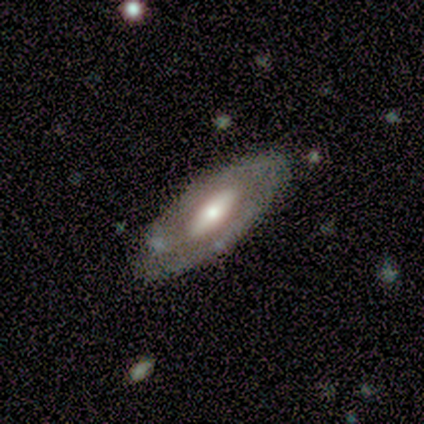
smooth_or_featured: featured or disk (p=0.80) [alt: smooth p=0.20]
disk_edge_on: no (p=0.75) [alt: yes p=0.25]
bar: strong (p=0.67) [alt: no p=0.33]
has_spiral_arms: yes (p=0.67) [alt: no p=0.33]
spiral_winding: tight (p=0.50) [tied with: loose p=0.50]
spiral_arm_count: 2 (p=1.00)
bulge_size: moderate (p=0.67) [alt: small p=0.33]
merging: none (p=0.80) [alt: minor disturbance p=0.20]